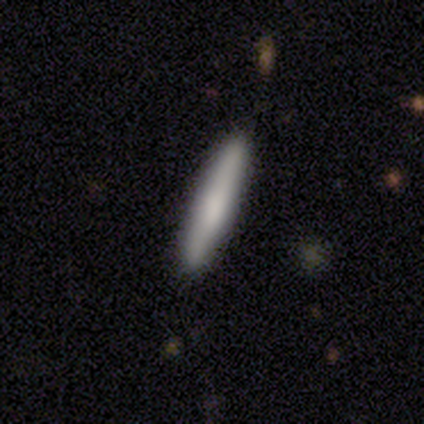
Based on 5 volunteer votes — Smooth or featured?
  - smooth: 80% *
  - featured or disk: 20%
  - star or artifact: 0%
How rounded?
  - cigar-shaped: 100% *
  - round: 0%
  - in between: 0%
Merging?
  - none: 100% *
  - minor disturbance: 0%
  - major disturbance: 0%
  - merger: 0%